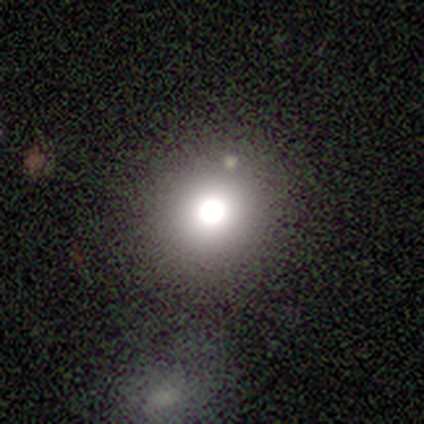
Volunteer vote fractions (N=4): Q: Smooth or featured?
A: featured or disk (50%); runner-up: smooth (25%)
Q: Edge-on disk?
A: yes (50%); tied with: no (50%)
Q: Edge-on bulge?
A: rounded (100%)
Q: Merging?
A: none (100%)